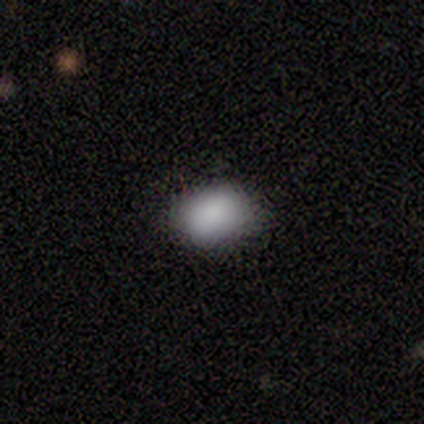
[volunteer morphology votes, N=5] A smooth galaxy with no disk features (60%) that is in between round and cigar-shaped (100%).

Vote fractions:
- Smooth or featured? smooth: 60% / featured or disk: 20% / star or artifact: 20%
- How rounded? in between: 100% / round: 0% / cigar-shaped: 0%
- Merging? none: 75% / minor disturbance: 25% / major disturbance: 0% / merger: 0%